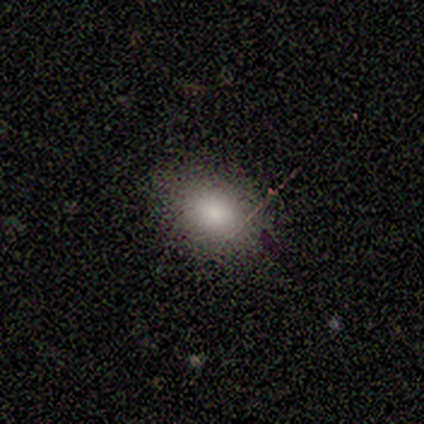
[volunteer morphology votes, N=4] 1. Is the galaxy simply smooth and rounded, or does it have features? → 100% smooth, 0% featured or disk, 0% star or artifact.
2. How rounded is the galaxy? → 75% in between, 25% round, 0% cigar-shaped.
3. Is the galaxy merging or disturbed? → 75% none, 25% minor disturbance, 0% major disturbance, 0% merger.